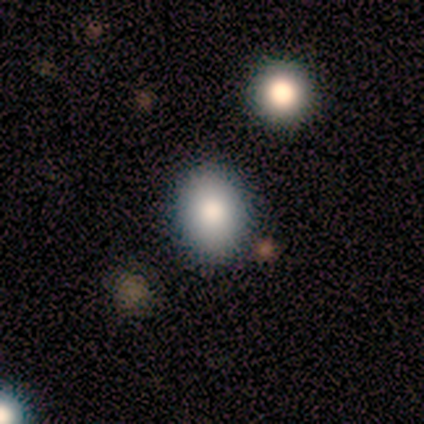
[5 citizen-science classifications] Morphology: type=smooth (80%); roundness=round (75%); merging=none (100%).